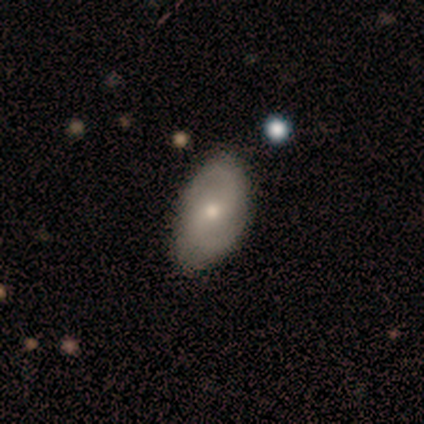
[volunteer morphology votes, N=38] Volunteers were most divided on "bulge size" (2-way tie): moderate: 44%, small: 44%, dominant: 6%, large: 6%, none: 0%. Remaining: edge-on disk — no (100%); spiral arms — yes (100%); spiral arm count — 2 (100%); merging — none (76%); bar — weak (61%); spiral winding — medium (50%); smooth or featured — featured or disk (47%).